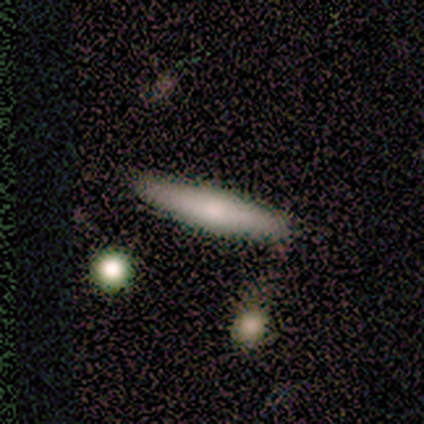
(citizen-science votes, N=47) smooth-or-featured: smooth: 62% | featured or disk: 32% | star or artifact: 6%
  how-rounded: cigar-shaped: 100% | round: 0% | in between: 0%
  merging: none: 77% | merger: 14% | minor disturbance: 9% | major disturbance: 0%